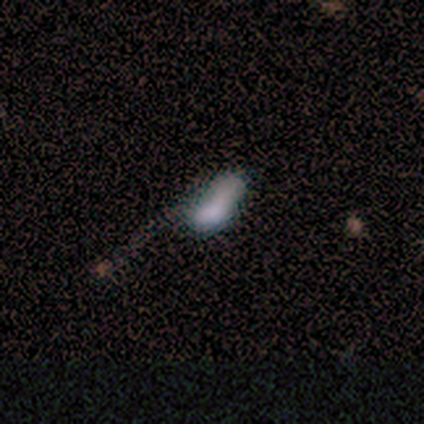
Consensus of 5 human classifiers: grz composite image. It shows a smooth galaxy with no disk features (80%) that is in between round and cigar-shaped (75%). Merging: none (100%).